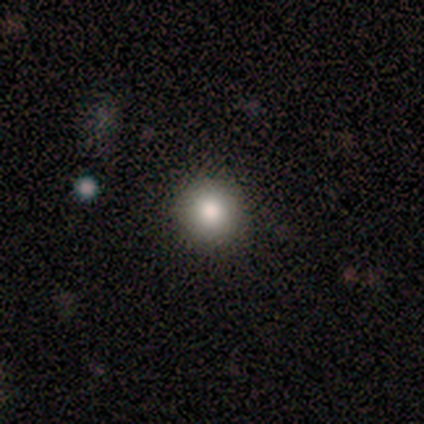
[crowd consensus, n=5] A smooth galaxy with no disk features (100%) that is round (100%). Merging: none (100%).